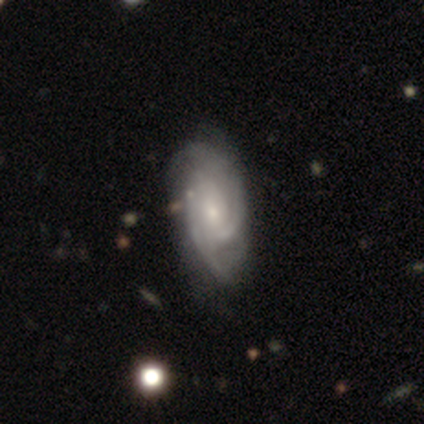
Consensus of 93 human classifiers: Smooth or featured?
  - featured or disk: 85% *
  - smooth: 9%
  - star or artifact: 6%
Edge-on disk?
  - no: 97% *
  - yes: 3%
Bar?
  - no: 61% *
  - weak: 30%
  - strong: 9%
Spiral arms?
  - yes: 94% *
  - no: 6%
Spiral winding?
  - tight: 49% *
  - medium: 44%
  - loose: 7%
Spiral arm count?
  - 2: 49% *
  - 3: 28%
  - can't tell: 19%
  - 4: 3%
  - 1: 1%
  - more than 4: 0%
Bulge size?
  - small: 69% *
  - moderate: 25%
  - dominant: 3%
  - none: 3%
  - large: 1%
Merging?
  - none: 66% *
  - minor disturbance: 23%
  - major disturbance: 9%
  - merger: 2%